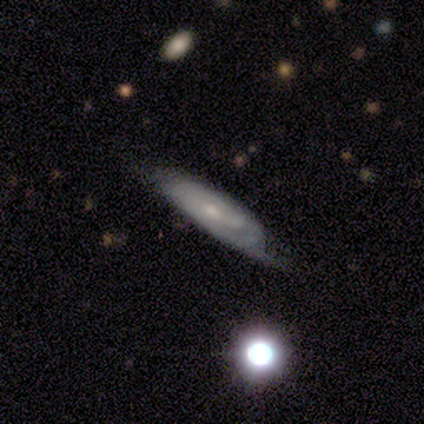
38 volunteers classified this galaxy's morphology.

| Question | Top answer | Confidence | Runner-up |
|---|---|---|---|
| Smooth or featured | featured or disk | 58% | smooth (29%) |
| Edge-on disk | no | 77% | yes (23%) |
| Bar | no | 82% | weak (18%) |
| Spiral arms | yes | 65% | no (35%) |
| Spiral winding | medium | 55% | tight (45%) |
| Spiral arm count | can't tell | 82% | 1 (9%) |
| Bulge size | small | 76% | moderate (24%) |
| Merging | none | 42% | minor disturbance (39%) |